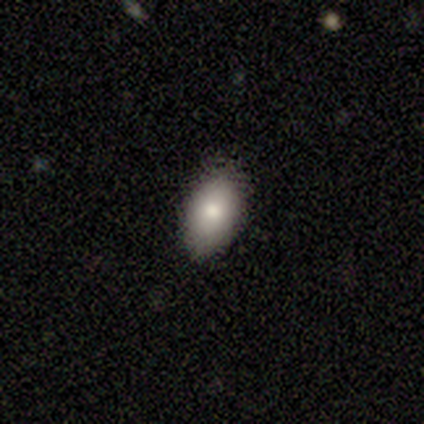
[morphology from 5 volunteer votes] Q: Smooth or featured?
A: smooth (100%)
Q: How rounded?
A: in between (80%); runner-up: round (20%)
Q: Merging?
A: none (80%); runner-up: merger (20%)